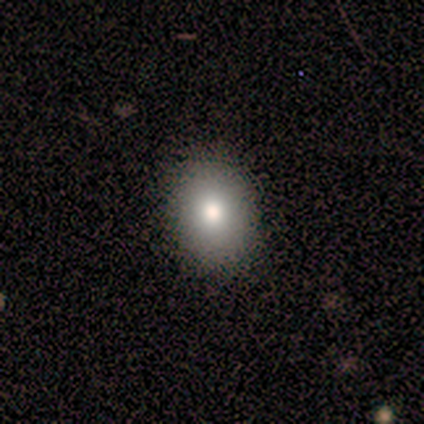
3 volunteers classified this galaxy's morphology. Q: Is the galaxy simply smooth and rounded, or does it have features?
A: smooth — 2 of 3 (67%).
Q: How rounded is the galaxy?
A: in between — 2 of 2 (100%).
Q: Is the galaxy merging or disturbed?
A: none — 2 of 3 (67%).